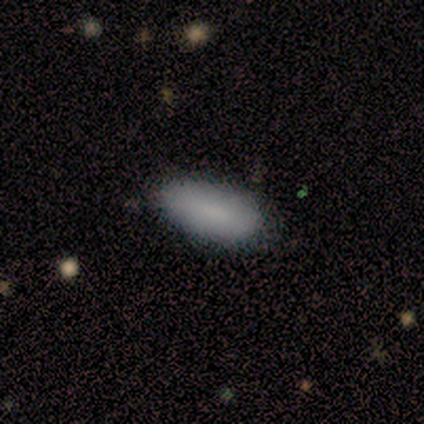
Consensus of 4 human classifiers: This appears to be a smooth galaxy with no disk features (100%) that is in between round and cigar-shaped (100%). Merging: none (100%).